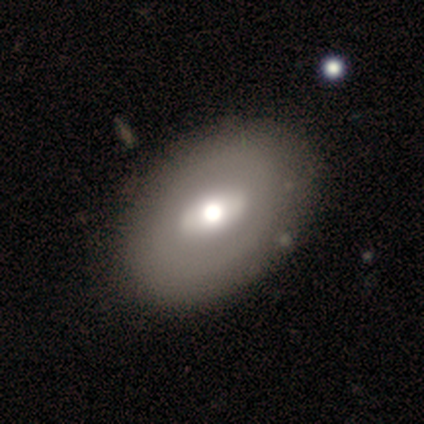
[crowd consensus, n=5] Overall: smooth (80%). How rounded: round (50%, tied with in between). Merging: none (60%; minor disturbance 20%).